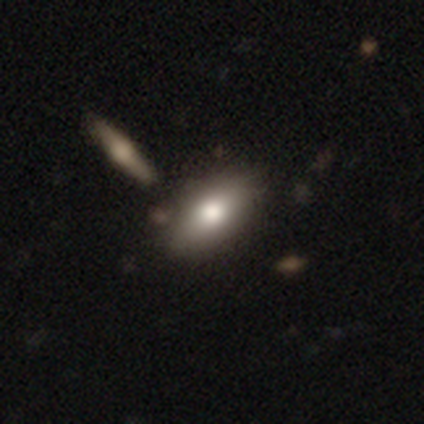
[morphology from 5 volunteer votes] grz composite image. It shows a smooth galaxy with no disk features (100%) that is in between round and cigar-shaped (80%). Merging: none (80%).